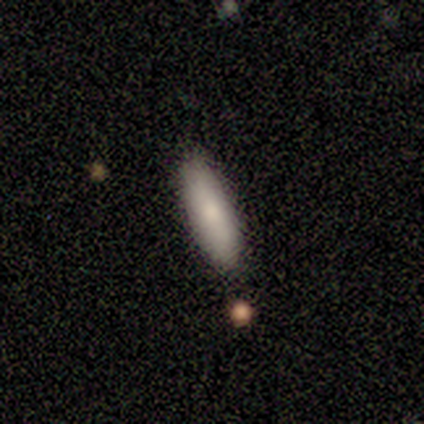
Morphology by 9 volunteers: Smooth or featured?
  - smooth: 89% *
  - star or artifact: 11%
  - featured or disk: 0%
How rounded?
  - cigar-shaped: 62% *
  - in between: 38%
  - round: 0%
Merging?
  - none: 100% *
  - minor disturbance: 0%
  - major disturbance: 0%
  - merger: 0%